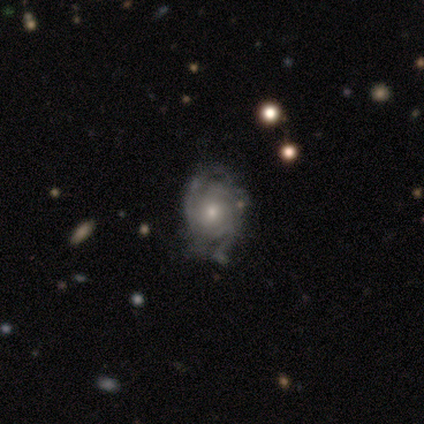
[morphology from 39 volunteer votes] This is clearly a featured or disk galaxy (87%). It is clearly not viewed edge-on (100%). Bar: clearly no (82%). Spiral arm pattern: clearly yes (97%). Spiral arm count: possibly can't tell (45%). Spiral winding: possibly tight (52%). Central bulge: possibly moderate (50%). Merging: possibly none (50%).